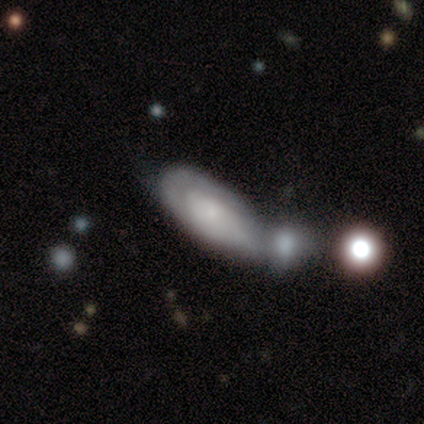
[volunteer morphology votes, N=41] smooth-or-featured: smooth: 49% | featured or disk: 41% | star or artifact: 10%
  how-rounded: in between: 85% | cigar-shaped: 10% | round: 5%
  merging: merger: 51% | none: 24% | minor disturbance: 16% | major disturbance: 8%